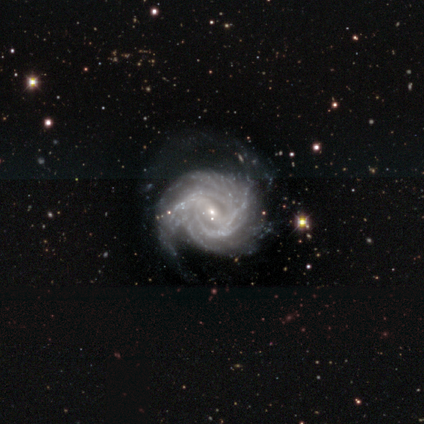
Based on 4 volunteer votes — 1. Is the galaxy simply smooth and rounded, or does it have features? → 100% featured or disk, 0% smooth, 0% star or artifact.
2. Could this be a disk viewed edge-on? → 100% no, 0% yes.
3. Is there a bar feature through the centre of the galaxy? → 50% weak, 25% strong, 25% no.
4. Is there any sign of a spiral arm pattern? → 100% yes, 0% no.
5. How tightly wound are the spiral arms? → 75% tight, 25% medium, 0% loose.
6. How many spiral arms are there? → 50% more than 4, 25% 2, 25% 3, 0% 1, 0% 4, 0% can't tell.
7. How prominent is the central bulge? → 100% small, 0% dominant, 0% large, 0% moderate, 0% none.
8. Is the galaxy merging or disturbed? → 100% none, 0% minor disturbance, 0% major disturbance, 0% merger.